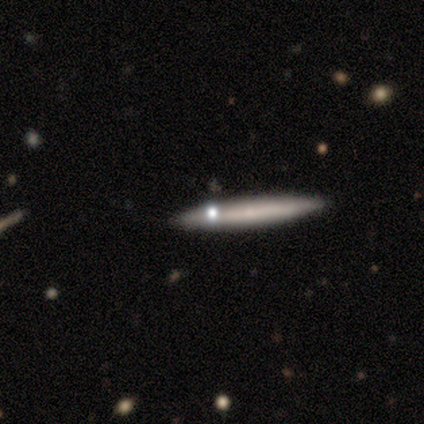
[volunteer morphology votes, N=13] A smooth galaxy with no disk features (46%) that is in between round and cigar-shaped (50%, tied with cigar-shaped). Merging: none (82%).